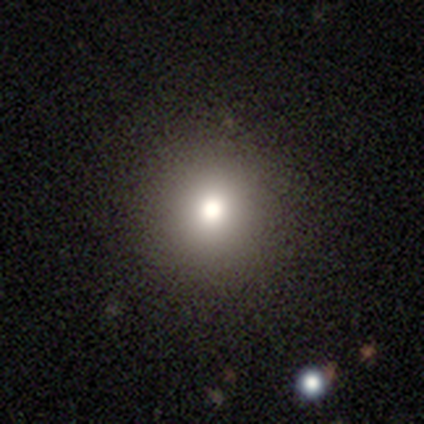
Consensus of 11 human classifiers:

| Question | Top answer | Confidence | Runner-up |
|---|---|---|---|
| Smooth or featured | smooth | 82% | featured or disk (18%) |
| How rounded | round | 100% | — |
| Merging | none | 91% | minor disturbance (9%) |